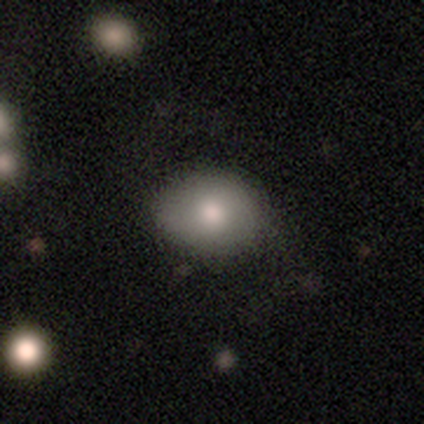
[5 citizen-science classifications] Smooth or featured?
  - smooth: 60% *
  - featured or disk: 20%
  - star or artifact: 20%
How rounded?
  - round: 67% *
  - in between: 33%
  - cigar-shaped: 0%
Merging?
  - none: 100% *
  - minor disturbance: 0%
  - major disturbance: 0%
  - merger: 0%